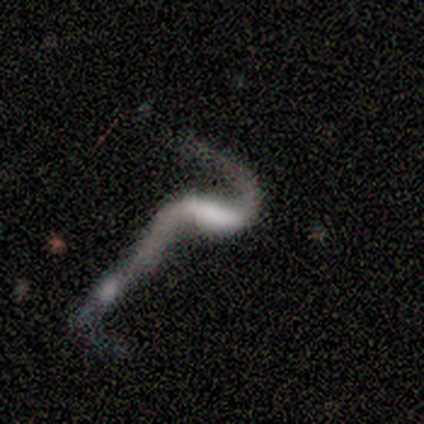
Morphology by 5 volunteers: Overall: featured or disk (80%). Edge-on disk: no (100%). Bar: weak (50%; strong 25%). Spiral arms: yes (75%). Spiral arm count: 2 (100%). Spiral winding: loose (100%). Bulge size: none (50%; large 25%). Merging: merger (60%; minor disturbance 20%).